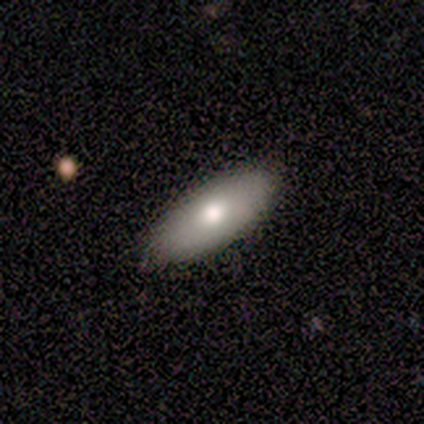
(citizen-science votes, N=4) smooth_or_featured: smooth (p=0.75) [alt: featured or disk p=0.25]
how_rounded: in between (p=0.67) [alt: cigar-shaped p=0.33]
merging: none (p=1.00)